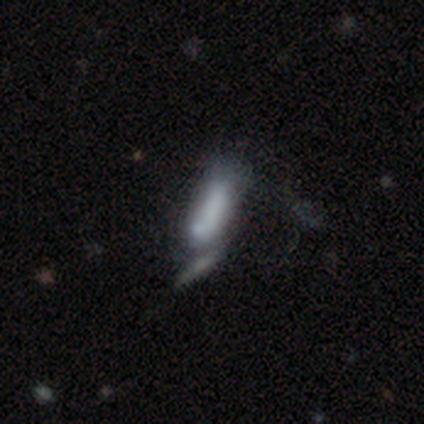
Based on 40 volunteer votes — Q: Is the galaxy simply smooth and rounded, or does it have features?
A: smooth — 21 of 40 (52%).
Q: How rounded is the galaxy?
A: in between — 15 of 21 (71%).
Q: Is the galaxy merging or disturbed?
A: merger — 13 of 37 (35%).